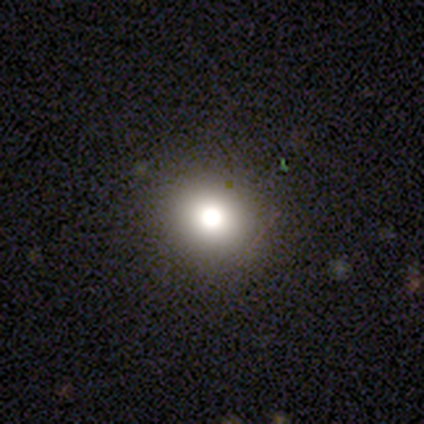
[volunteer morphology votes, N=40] smooth_or_featured: smooth (p=0.75) [alt: star or artifact p=0.15]
how_rounded: round (p=0.87) [alt: in between p=0.13]
merging: none (p=0.94) [alt: minor disturbance p=0.03]